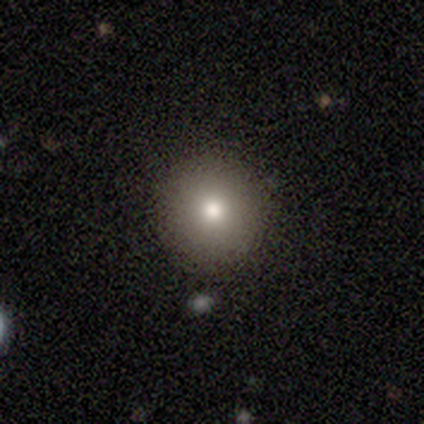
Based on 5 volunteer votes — A smooth galaxy with no disk features (80%) that is round (100%). Merging: none (100%).